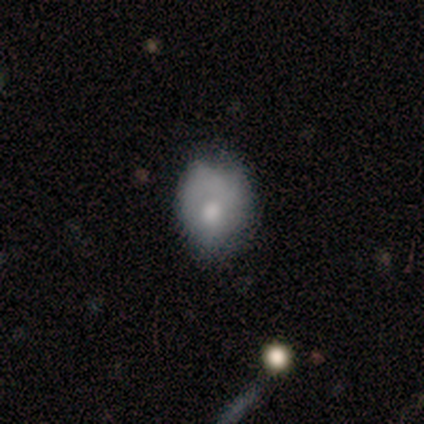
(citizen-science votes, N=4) smooth_or_featured: smooth (p=1.00)
how_rounded: in between (p=0.75) [alt: round p=0.25]
merging: none (p=0.50) [alt: minor disturbance p=0.25]